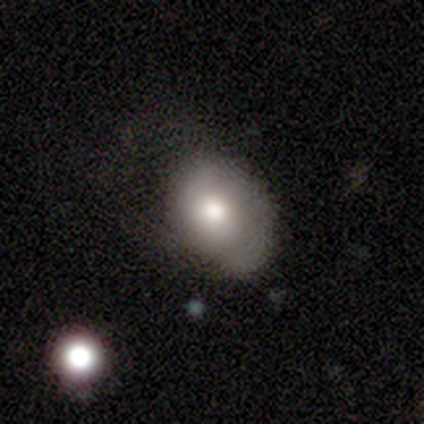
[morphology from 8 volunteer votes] This appears to be a smooth galaxy with no disk features (75%) that is in between round and cigar-shaped (67%). Merging: none (50%).